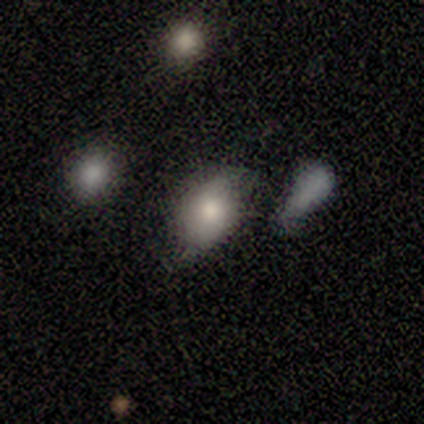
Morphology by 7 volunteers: This is likely a smooth galaxy (71%). How rounded: clearly in between (80%). Merging: clearly minor disturbance (83%).